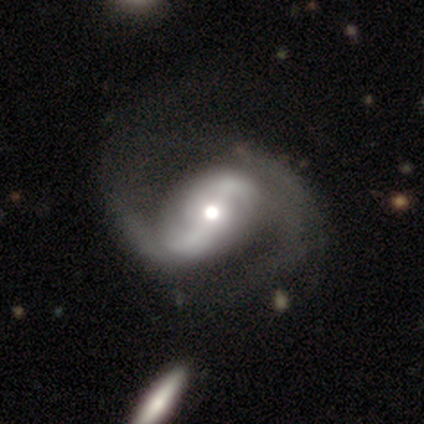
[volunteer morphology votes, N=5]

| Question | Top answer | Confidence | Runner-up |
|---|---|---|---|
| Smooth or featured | featured or disk | 60% | smooth (20%) |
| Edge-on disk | no | 100% | — |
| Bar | weak | 67% | no (33%) |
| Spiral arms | yes | 100% | — |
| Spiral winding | medium | 67% | loose (33%) |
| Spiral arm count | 2 | 67% | can't tell (33%) |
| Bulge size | small | 67% | moderate (33%) |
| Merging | merger | 50% | none (25%) |